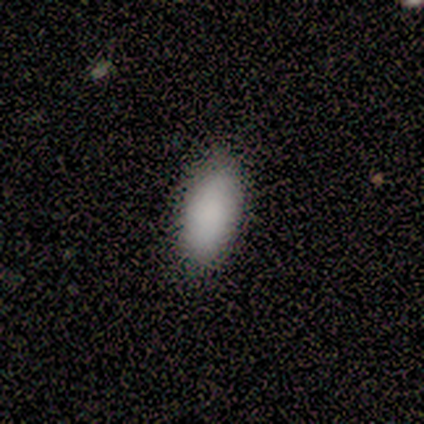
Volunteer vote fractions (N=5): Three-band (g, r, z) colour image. It shows a smooth galaxy with no disk features (100%) that is in between round and cigar-shaped (100%). Merging: none (100%).